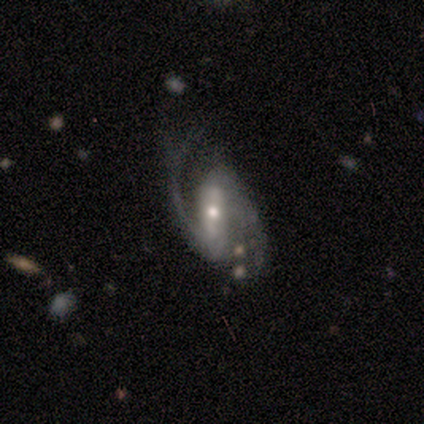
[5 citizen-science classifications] Overall: featured or disk (80%). Edge-on disk: no (100%). Bar: strong (100%). Spiral arms: yes (100%). Spiral arm count: 2 (100%). Spiral winding: medium (50%, tied with loose). Bulge size: moderate (75%). Merging: none (50%, tied with minor disturbance).